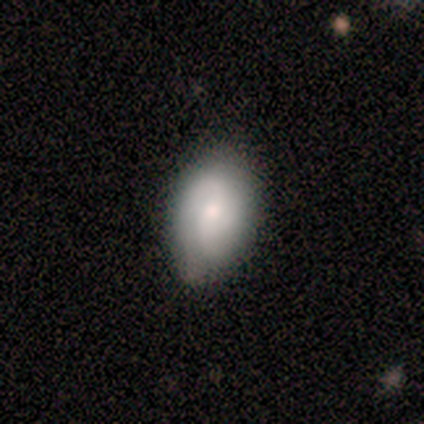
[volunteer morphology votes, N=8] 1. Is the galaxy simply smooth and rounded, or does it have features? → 50% smooth (tied), 50% featured or disk (tied), 0% star or artifact.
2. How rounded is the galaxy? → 75% in between, 25% round, 0% cigar-shaped.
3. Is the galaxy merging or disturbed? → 88% none, 12% minor disturbance, 0% major disturbance, 0% merger.